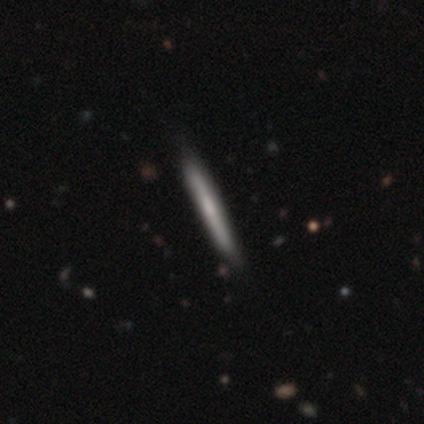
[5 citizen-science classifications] featured or disk 80%, smooth 20%, star or artifact 0%. Down the decision tree: edge-on disk — yes (100%); edge-on bulge — none (50%, tied with rounded); merging — none (60%).